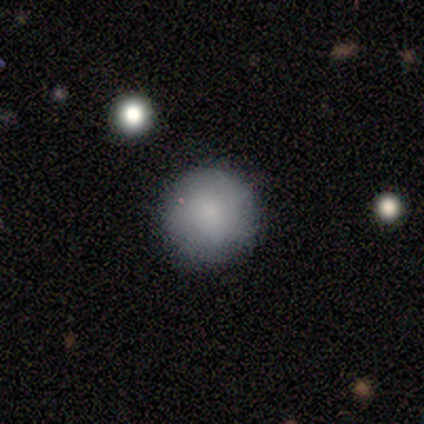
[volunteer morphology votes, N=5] Smooth or featured? 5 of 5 (100%) said smooth. How rounded? 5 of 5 (100%) said round. Merging? 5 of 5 (100%) said none.